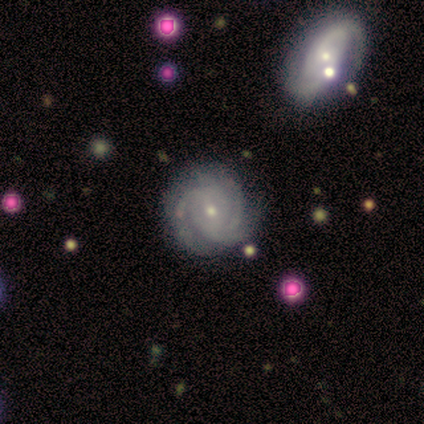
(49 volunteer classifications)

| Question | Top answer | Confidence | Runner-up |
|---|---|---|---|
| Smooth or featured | featured or disk | 94% | star or artifact (6%) |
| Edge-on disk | no | 98% | yes (2%) |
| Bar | no | 64% | weak (33%) |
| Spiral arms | yes | 100% | — |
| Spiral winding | tight | 64% | medium (29%) |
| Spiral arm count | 3 | 33% | can't tell (29%) |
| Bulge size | small | 80% | moderate (18%) |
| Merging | none | 63% | minor disturbance (30%) |